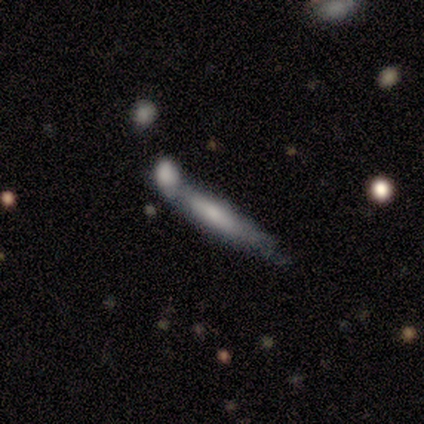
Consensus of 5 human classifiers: smooth 40% (tied), featured or disk 40% (tied), star or artifact 20%. Down the decision tree: how rounded — cigar-shaped (100%); merging — none (50%, tied with minor disturbance).